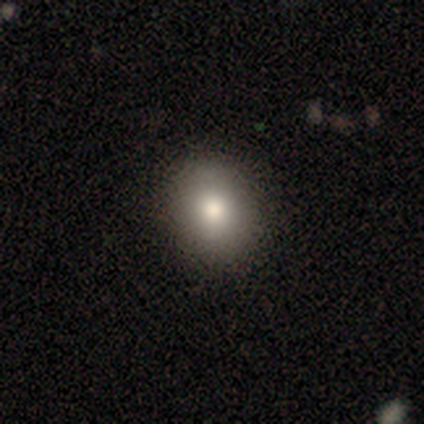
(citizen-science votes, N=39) smooth 82%, featured or disk 10%, star or artifact 8%. Down the decision tree: how rounded — round (50%, tied with in between); merging — none (64%).